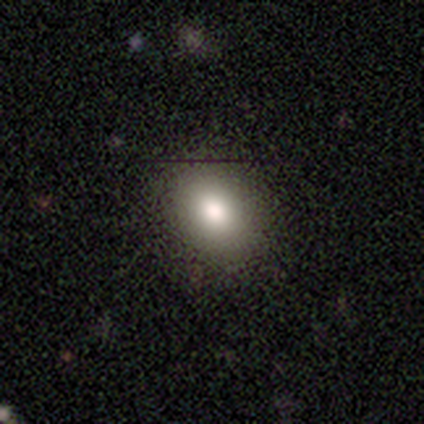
Smooth or featured? smooth (80%)
How rounded? in between (59%)
Merging? none (86%)